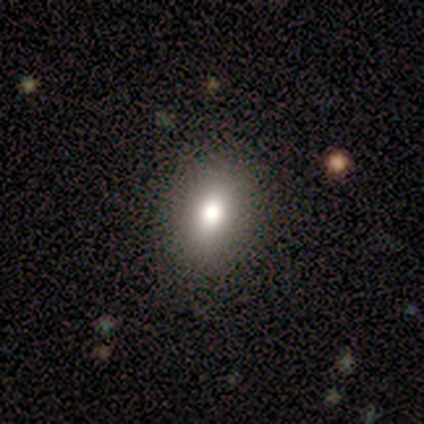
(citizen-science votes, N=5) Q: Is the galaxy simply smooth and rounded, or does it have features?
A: smooth — 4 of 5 (80%).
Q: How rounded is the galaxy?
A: in between — 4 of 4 (100%).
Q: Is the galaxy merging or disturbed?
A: none — 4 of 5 (80%).